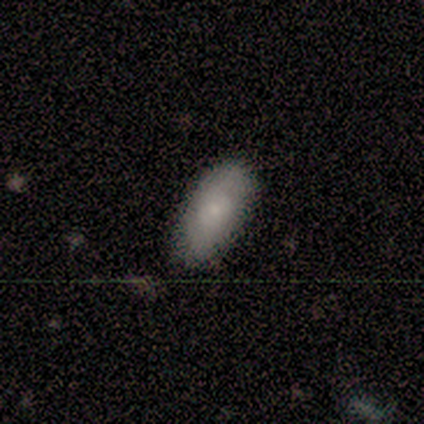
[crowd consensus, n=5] Smooth or featured? smooth (100%)
How rounded? in between (100%)
Merging? none (80%)